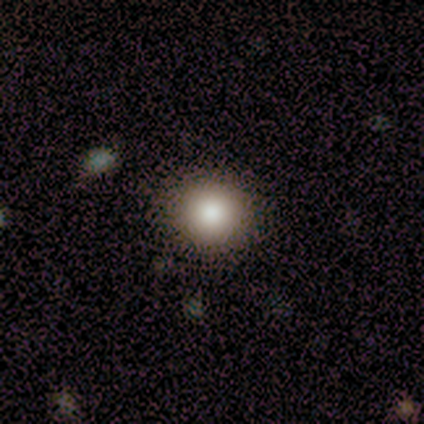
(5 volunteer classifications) This appears to be a smooth galaxy with no disk features (100%) that is round (100%). Merging: none (100%).